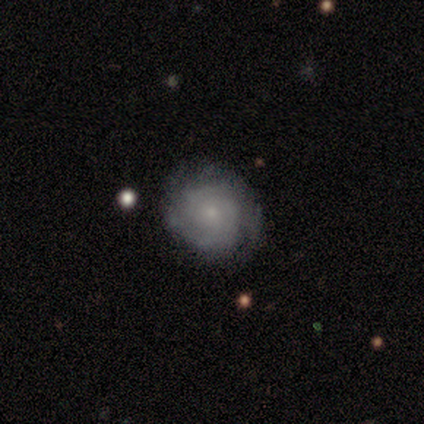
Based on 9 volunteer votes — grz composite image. It shows a smooth galaxy with no disk features (56%) that is round (80%). Merging: none (100%).